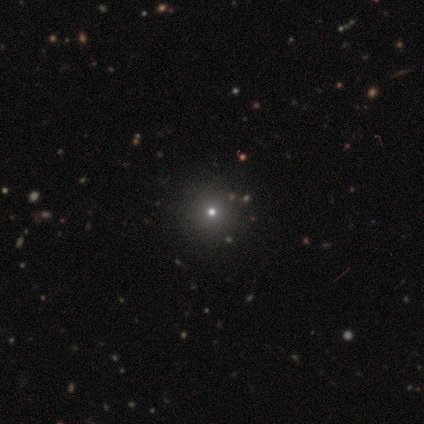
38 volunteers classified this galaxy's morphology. smooth_or_featured: star or artifact (p=0.53) [alt: smooth p=0.45]